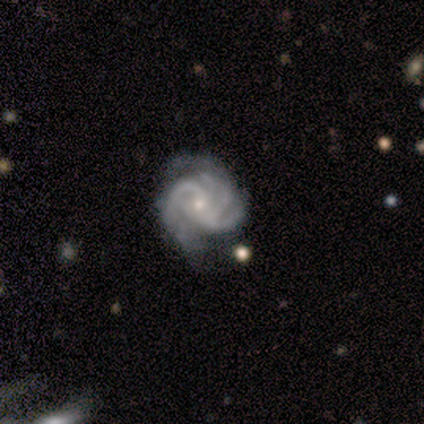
A featured or disk galaxy (100%) with no bar (75%), tight (75%) spiral arms (100%) and a small central bulge (75%).

Vote fractions:
- Smooth or featured? featured or disk: 100% / smooth: 0% / star or artifact: 0%
- Edge-on disk? no: 100% / yes: 0%
- Bar? no: 75% / weak: 25% / strong: 0%
- Spiral arms? yes: 100% / no: 0%
- Spiral winding? tight: 75% / medium: 25% / loose: 0%
- Spiral arm count? can't tell: 50% / 2: 25% / 3: 25% / 1: 0% / 4: 0% / more than 4: 0%
- Bulge size? small: 75% / moderate: 25% / dominant: 0% / large: 0% / none: 0%
- Merging? minor disturbance: 50% / none: 25% / major disturbance: 25% / merger: 0%